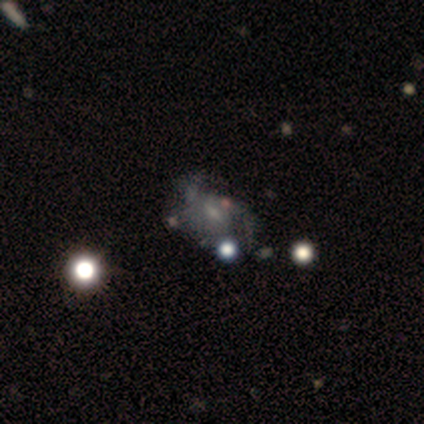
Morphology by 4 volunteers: Smooth or featured?
  - featured or disk: 75% *
  - star or artifact: 25%
  - smooth: 0%
Edge-on disk?
  - no: 100% *
  - yes: 0%
Bar?
  - weak: 67% *
  - no: 33%
  - strong: 0%
Spiral arms?
  - yes: 100% *
  - no: 0%
Spiral winding?
  - loose: 100% *
  - tight: 0%
  - medium: 0%
Spiral arm count?
  - 2: 100% *
  - 1: 0%
  - 3: 0%
  - 4: 0%
  - more than 4: 0%
  - can't tell: 0%
Bulge size?
  - small: 100% *
  - dominant: 0%
  - large: 0%
  - moderate: 0%
  - none: 0%
Merging?
  - none: 67% *
  - major disturbance: 33%
  - minor disturbance: 0%
  - merger: 0%